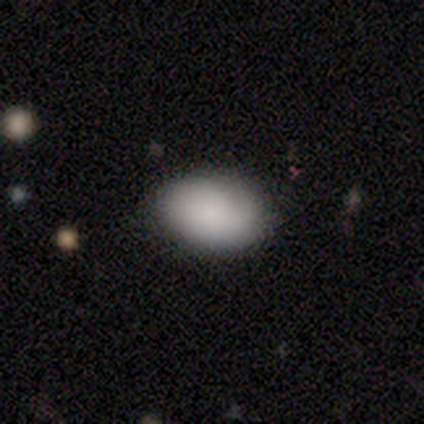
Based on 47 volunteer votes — Morphology: type=smooth (94%); roundness=in between (86%); merging=none (80%).